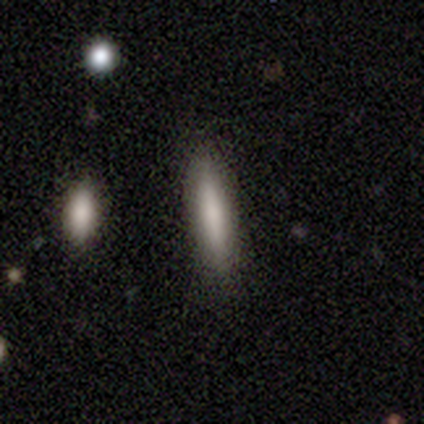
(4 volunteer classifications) Overall: smooth (100%). How rounded: cigar-shaped (75%). Merging: none (100%).